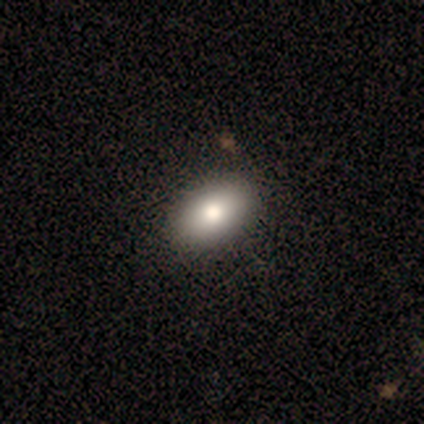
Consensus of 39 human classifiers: This is clearly a smooth galaxy (90%). How rounded: clearly in between (91%). Merging: likely none (64%).